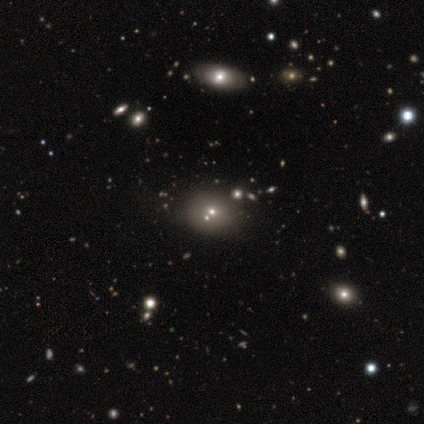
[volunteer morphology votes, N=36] Volunteers were most divided on "how rounded" (2-way tie): round: 50%, in between: 50%, cigar-shaped: 0%. Remaining: smooth or featured — smooth (50%); merging — merger (40%).